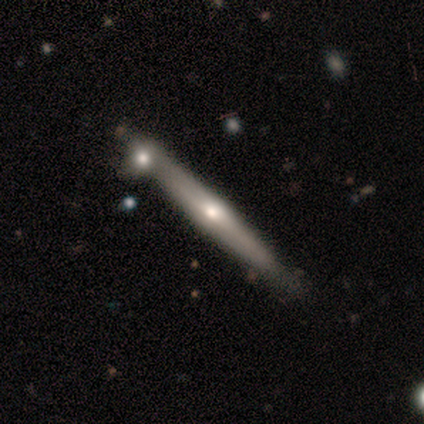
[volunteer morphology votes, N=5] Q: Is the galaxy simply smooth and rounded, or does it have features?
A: featured or disk — 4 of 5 (80%).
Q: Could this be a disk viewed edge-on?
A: yes — 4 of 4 (100%).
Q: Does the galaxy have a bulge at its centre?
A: rounded — 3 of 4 (75%).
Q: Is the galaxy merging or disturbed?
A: none — 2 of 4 (50%).